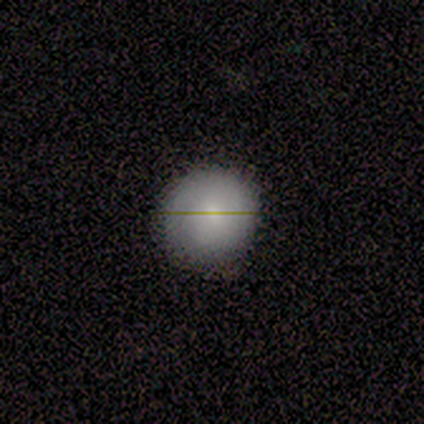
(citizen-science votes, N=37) Q: Smooth or featured?
A: smooth (76%); runner-up: featured or disk (19%)
Q: How rounded?
A: round (96%); runner-up: in between (4%)
Q: Merging?
A: none (60%); runner-up: minor disturbance (6%)